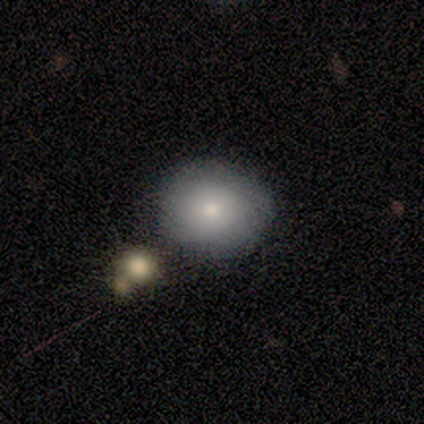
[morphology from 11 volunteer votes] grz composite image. It shows a smooth galaxy with no disk features (73%) that is round (100%). Merging: none (90%).